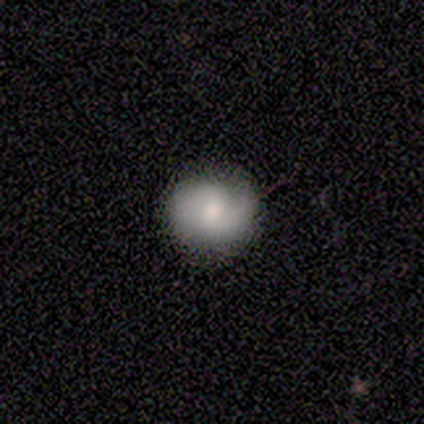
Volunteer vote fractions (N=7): This is possibly a smooth galaxy (57%). How rounded: clearly round (100%). Merging: clearly none (86%).